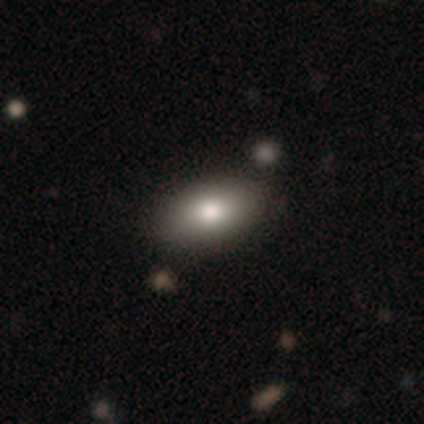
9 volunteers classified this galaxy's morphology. Volunteers were most divided on "smooth or featured": smooth: 67%, star or artifact: 22%, featured or disk: 11%. More confident: how rounded — in between (100%); merging — none (100%).